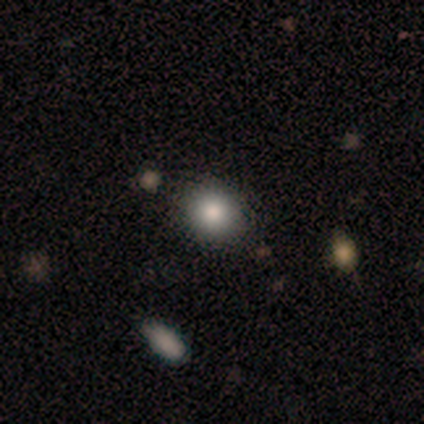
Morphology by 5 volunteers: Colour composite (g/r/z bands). It shows a smooth galaxy with no disk features (100%) that is round (60%). Merging: none (100%).